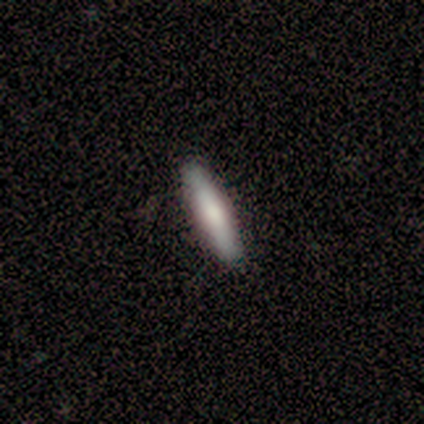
Smooth or featured? 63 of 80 (79%) said smooth. How rounded? 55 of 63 (87%) said cigar-shaped. Merging? 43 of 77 (56%) said none.